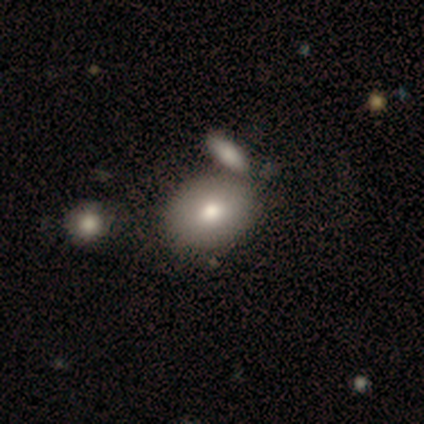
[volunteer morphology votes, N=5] This is likely a smooth galaxy (60%). How rounded: likely round (67%). Merging: likely merger (75%).